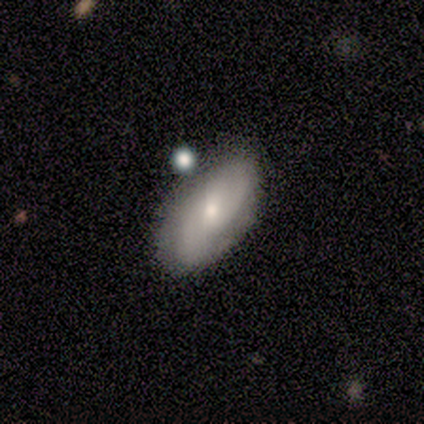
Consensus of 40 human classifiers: This appears to be a featured or disk galaxy (75%) with no bar (46%), 2 (78%) medium (52%) spiral arms (82%) and a moderate central bulge (64%). Merging: none (68%).